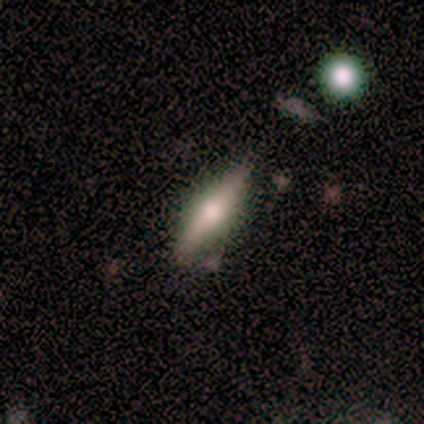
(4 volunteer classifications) This appears to be a smooth galaxy with no disk features (75%) that is cigar-shaped (67%). Merging: none (100%).